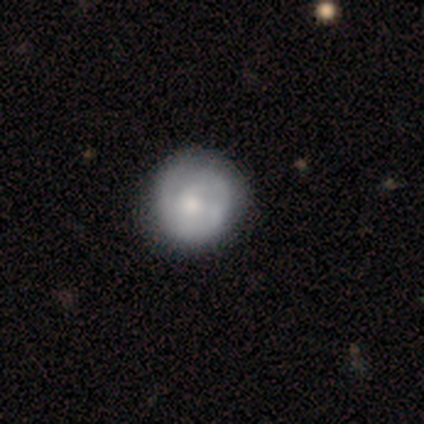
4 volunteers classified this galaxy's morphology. This appears to be a smooth galaxy with no disk features (100%) that is round (100%). Merging: none (75%).